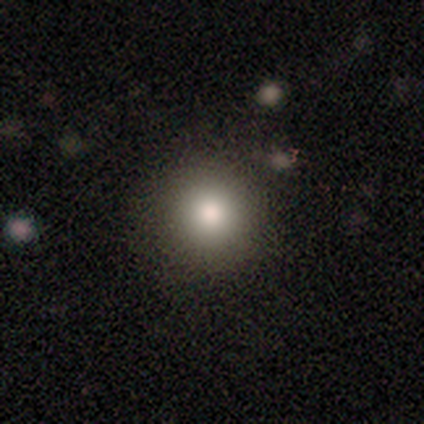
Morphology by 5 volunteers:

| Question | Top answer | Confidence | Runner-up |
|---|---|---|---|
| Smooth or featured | smooth | 60% | star or artifact (40%) |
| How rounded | round | 100% | — |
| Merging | none | 100% | — |